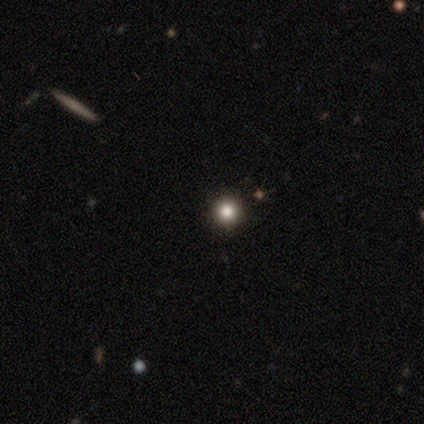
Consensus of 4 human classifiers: Smooth or featured?
  - smooth: 50% * (tied)
  - star or artifact: 50% * (tied)
  - featured or disk: 0%
How rounded?
  - round: 100% *
  - in between: 0%
  - cigar-shaped: 0%
Merging?
  - none: 100% *
  - minor disturbance: 0%
  - major disturbance: 0%
  - merger: 0%